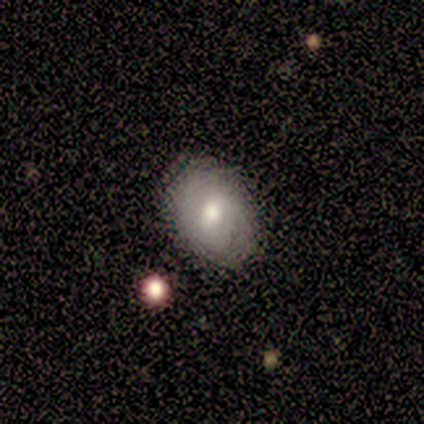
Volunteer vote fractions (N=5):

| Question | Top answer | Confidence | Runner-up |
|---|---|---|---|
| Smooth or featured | smooth | 80% | featured or disk (20%) |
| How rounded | in between | 75% | round (25%) |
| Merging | none | 80% | minor disturbance (20%) |